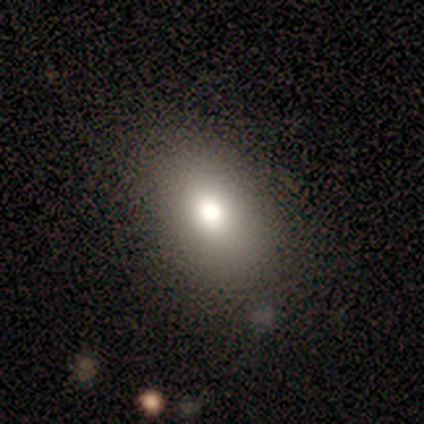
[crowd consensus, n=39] smooth 82%, featured or disk 13%, star or artifact 5%. Down the decision tree: how rounded — in between (75%); merging — none (81%).